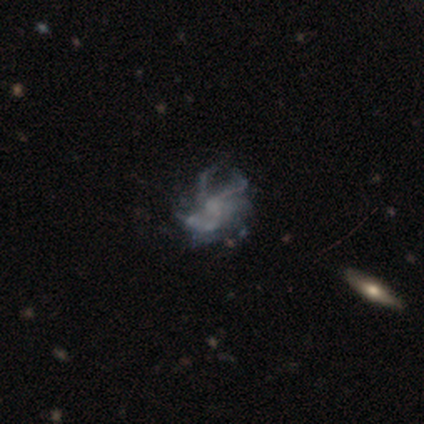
Overall: featured or disk (74%). Edge-on disk: no (93%). Bar: no (85%). Spiral arms: yes (74%). Spiral arm count: can't tell (40%; 3 25%). Spiral winding: medium (50%; tight 25%). Bulge size: none (67%). Merging: none (63%).